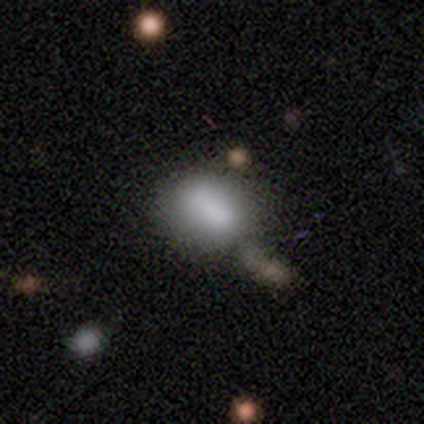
Overall: smooth (83%). How rounded: in between (100%). Merging: none (67%).